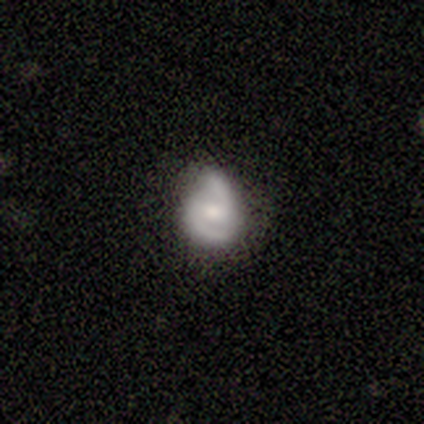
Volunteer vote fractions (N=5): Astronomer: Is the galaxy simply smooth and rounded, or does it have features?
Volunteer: featured or disk — 60%.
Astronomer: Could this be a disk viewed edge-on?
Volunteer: no — 100%.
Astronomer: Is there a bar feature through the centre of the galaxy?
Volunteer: weak — 100%.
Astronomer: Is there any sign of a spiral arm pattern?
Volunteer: yes — 100%.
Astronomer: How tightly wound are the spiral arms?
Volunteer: medium — 100%.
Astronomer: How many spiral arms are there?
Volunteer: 2 — 100%.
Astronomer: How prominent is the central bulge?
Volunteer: moderate — 67%.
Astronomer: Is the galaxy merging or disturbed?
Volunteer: none — 100%.